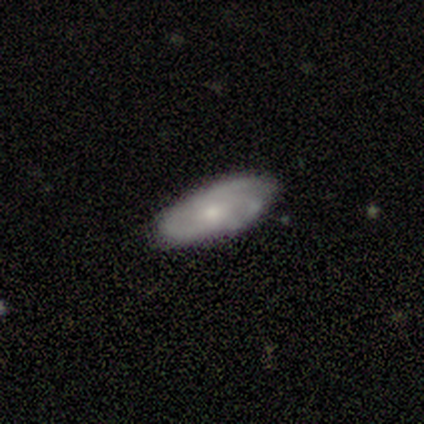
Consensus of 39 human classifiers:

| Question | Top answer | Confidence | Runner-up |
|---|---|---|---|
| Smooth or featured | featured or disk | 54% | smooth (41%) |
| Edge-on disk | no | 90% | yes (10%) |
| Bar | no | 74% | weak (26%) |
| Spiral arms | yes | 84% | no (16%) |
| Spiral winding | medium | 56% | tight (38%) |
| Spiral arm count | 3 | 56% | can't tell (44%) |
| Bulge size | small | 58% | moderate (42%) |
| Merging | none | 70% | minor disturbance (19%) |